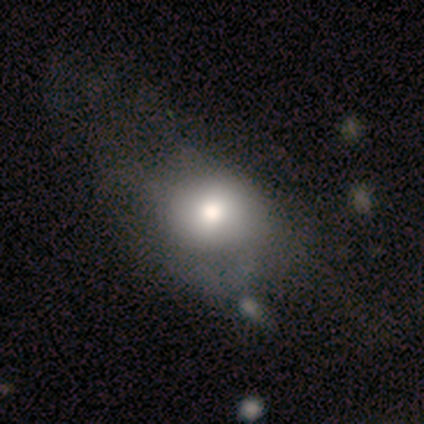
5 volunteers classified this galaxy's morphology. Q: Smooth or featured?
A: smooth (80%); runner-up: featured or disk (20%)
Q: How rounded?
A: round (50%); tied with: in between (50%)
Q: Merging?
A: major disturbance (60%); runner-up: minor disturbance (20%)